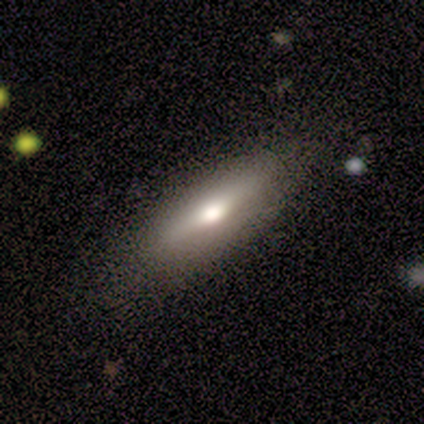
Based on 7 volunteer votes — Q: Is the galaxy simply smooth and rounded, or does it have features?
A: smooth — 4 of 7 (57%).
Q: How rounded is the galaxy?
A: in between — 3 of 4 (75%).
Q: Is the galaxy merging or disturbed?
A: none — 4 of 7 (57%).